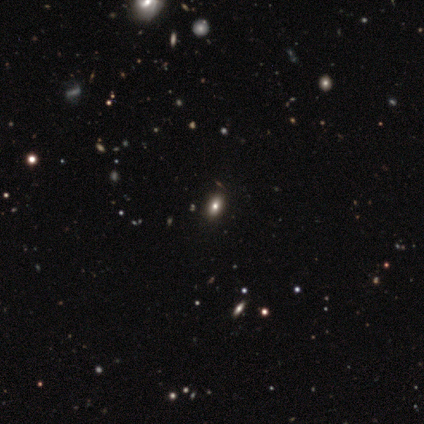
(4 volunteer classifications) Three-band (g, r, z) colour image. It shows a smooth galaxy with no disk features (50%) that is round (50%, tied with in between). Merging: none (67%).